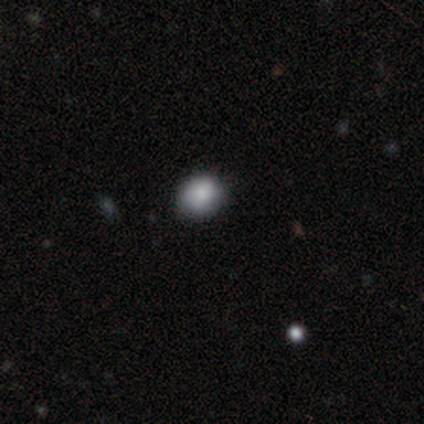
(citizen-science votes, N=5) smooth 100%, featured or disk 0%, star or artifact 0%. Down the decision tree: how rounded — round (80%); merging — none (80%).